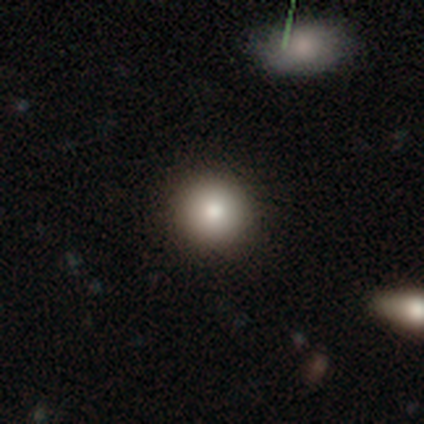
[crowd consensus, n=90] Smooth or featured? smooth (79%)
How rounded? round (96%)
Merging? none (90%)